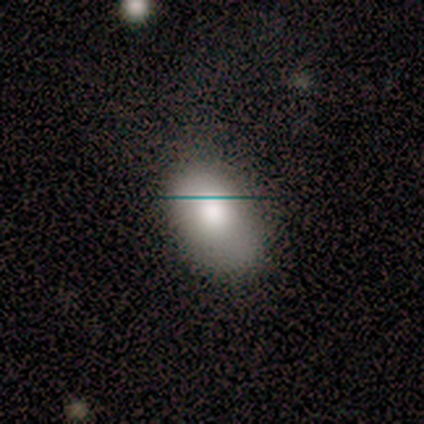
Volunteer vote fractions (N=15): Smooth or featured?
  - smooth: 87% *
  - featured or disk: 7%
  - star or artifact: 7%
How rounded?
  - in between: 100% *
  - round: 0%
  - cigar-shaped: 0%
Merging?
  - none: 50% *
  - minor disturbance: 43%
  - major disturbance: 7%
  - merger: 0%